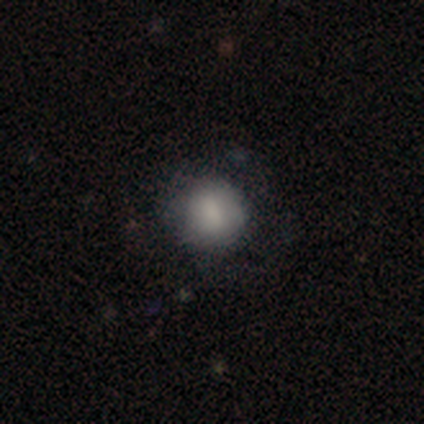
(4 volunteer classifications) smooth 100%, featured or disk 0%, star or artifact 0%. Down the decision tree: how rounded — round (75%); merging — none (75%).